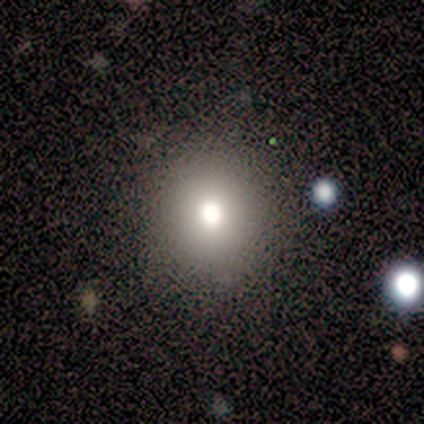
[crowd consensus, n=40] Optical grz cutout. It shows a smooth galaxy with no disk features (68%) that is round (89%). Merging: none (86%).